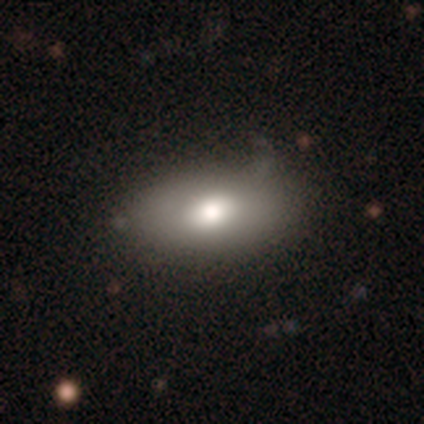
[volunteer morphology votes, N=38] Smooth or featured: smooth — 68% (featured or disk — 29%)
How rounded: in between — 92% (round — 4%)
Merging: none — 68% (minor disturbance — 22%)